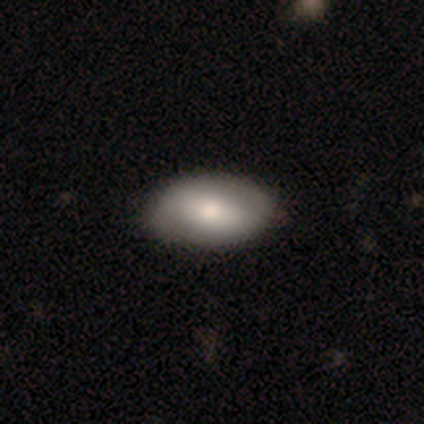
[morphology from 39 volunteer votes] smooth-or-featured: smooth: 72% | featured or disk: 28% | star or artifact: 0%
  how-rounded: in between: 93% | cigar-shaped: 7% | round: 0%
  merging: none: 79% | minor disturbance: 18% | merger: 3% | major disturbance: 0%